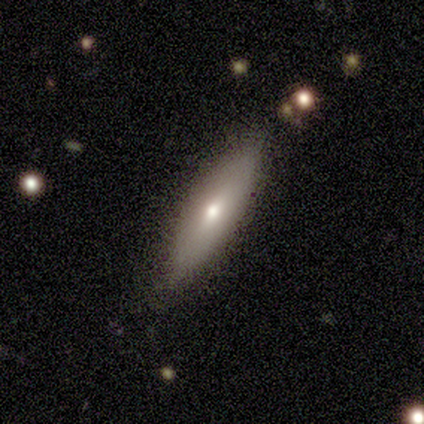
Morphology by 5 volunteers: This appears to be a smooth galaxy with no disk features (80%) that is cigar-shaped (75%). Merging: none (100%).